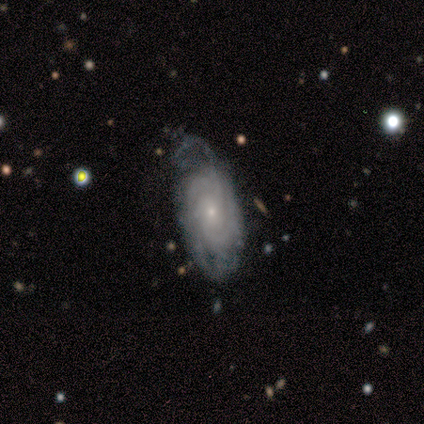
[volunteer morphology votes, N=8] featured or disk 88%, smooth 12%, star or artifact 0%. Down the decision tree: edge-on disk — no (86%); bar — no (67%); spiral arms — yes (100%); spiral arm count — 4 (50%); spiral winding — tight (83%); bulge size — small (100%); merging — none (62%).